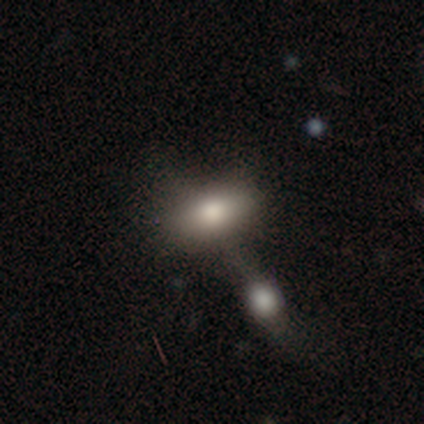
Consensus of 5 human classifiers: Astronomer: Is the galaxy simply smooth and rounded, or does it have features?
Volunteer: featured or disk — 60% (runner-up: smooth, 40%).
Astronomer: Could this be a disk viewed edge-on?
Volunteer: no — 67%.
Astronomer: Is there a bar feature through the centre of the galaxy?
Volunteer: no — 100%.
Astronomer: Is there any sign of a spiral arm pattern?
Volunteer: no — 100%.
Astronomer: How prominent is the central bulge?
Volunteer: moderate — 100%.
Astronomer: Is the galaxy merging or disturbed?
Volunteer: none — 80%.